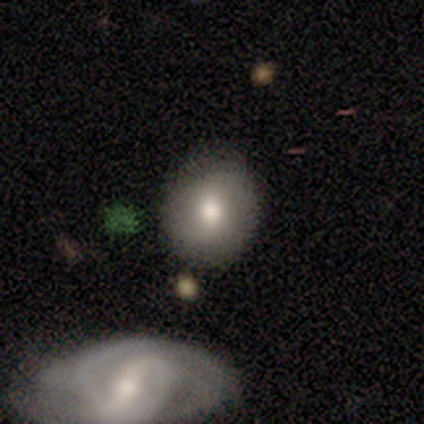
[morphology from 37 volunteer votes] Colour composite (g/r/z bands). It shows a smooth galaxy with no disk features (68%) that is round (68%). Merging: none (64%).